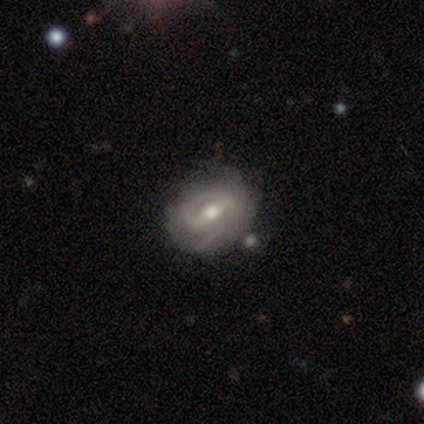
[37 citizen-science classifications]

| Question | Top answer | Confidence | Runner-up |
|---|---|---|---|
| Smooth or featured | featured or disk | 84% | smooth (14%) |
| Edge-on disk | no | 97% | yes (3%) |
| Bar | weak | 57% | strong (43%) |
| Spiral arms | yes | 90% | no (10%) |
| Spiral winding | tight | 52% | medium (41%) |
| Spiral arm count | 2 | 56% | can't tell (33%) |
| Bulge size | moderate | 90% | small (7%) |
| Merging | none | 36% | minor disturbance (25%) |